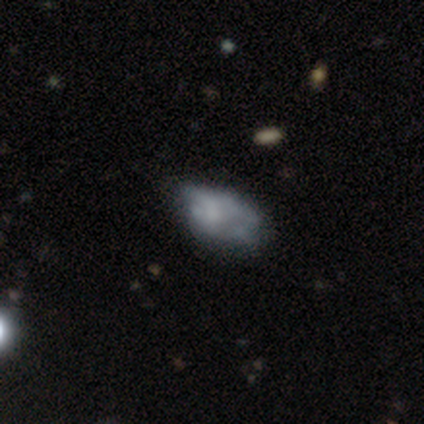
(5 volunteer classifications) This is clearly a featured or disk galaxy (80%). It is clearly not viewed edge-on (100%). Bar: likely no (75%). Spiral arm pattern: likely no (75%). Central bulge: likely none (75%). Merging: likely none (60%).